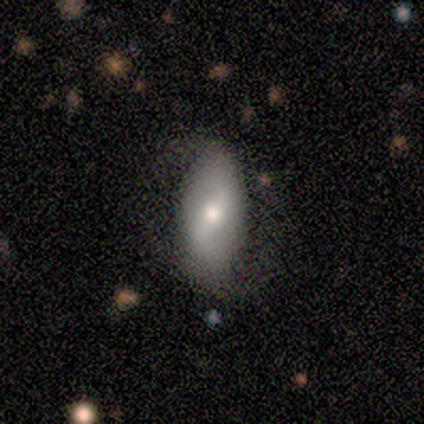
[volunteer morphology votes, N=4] Smooth or featured?
  - smooth: 75% *
  - featured or disk: 25%
  - star or artifact: 0%
How rounded?
  - round: 33% * (tied)
  - in between: 33% * (tied)
  - cigar-shaped: 33% * (tied)
Merging?
  - none: 75% *
  - major disturbance: 25%
  - minor disturbance: 0%
  - merger: 0%